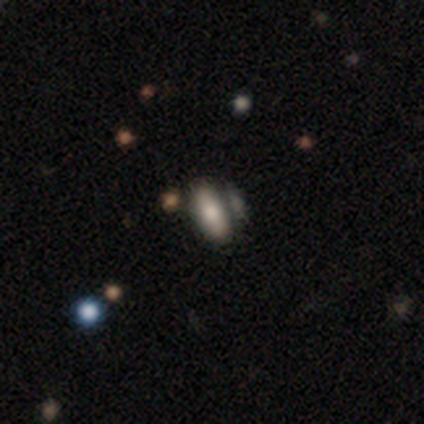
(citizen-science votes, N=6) smooth_or_featured: smooth (p=1.00)
how_rounded: in between (p=0.83) [alt: cigar-shaped p=0.17]
merging: none (p=0.50) [alt: minor disturbance p=0.17]